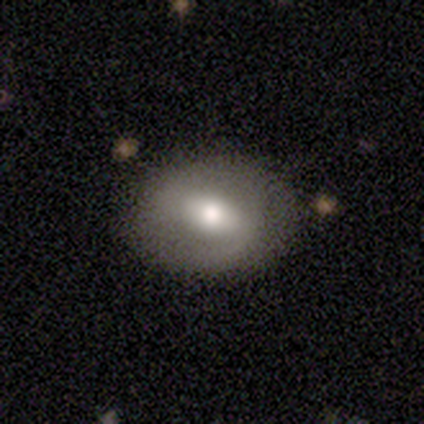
This is clearly a featured or disk galaxy (100%). It is likely not viewed edge-on (60%). Bar: likely weak (67%). Spiral arm pattern: likely no (67%). Central bulge: likely moderate (67%). Merging: likely none (60%).